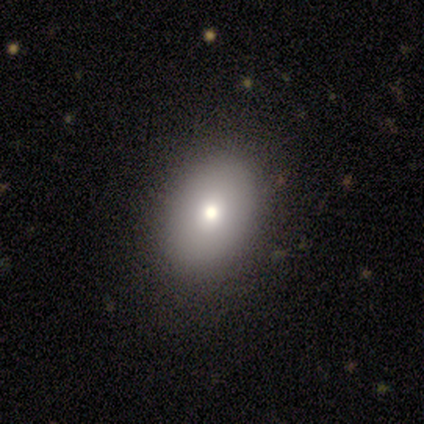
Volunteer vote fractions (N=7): smooth-or-featured: smooth: 71% | featured or disk: 29% | star or artifact: 0%
  how-rounded: in between: 100% | round: 0% | cigar-shaped: 0%
  merging: none: 100% | minor disturbance: 0% | major disturbance: 0% | merger: 0%